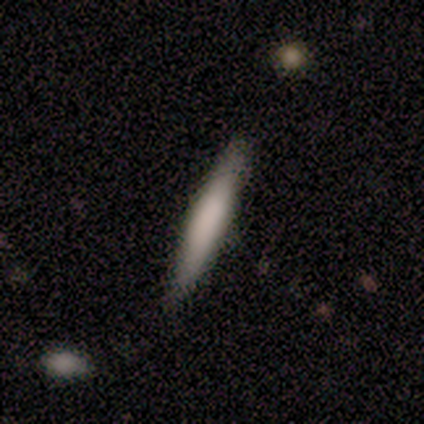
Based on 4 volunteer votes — Smooth or featured? 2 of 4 (50%, tied with featured or disk) said smooth. How rounded? 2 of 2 (100%) said cigar-shaped. Merging? 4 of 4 (100%) said none.